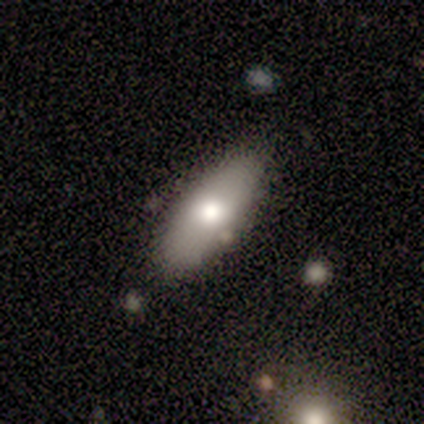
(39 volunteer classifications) A smooth galaxy with no disk features (77%) that is in between round and cigar-shaped (83%). Merging: none (77%).